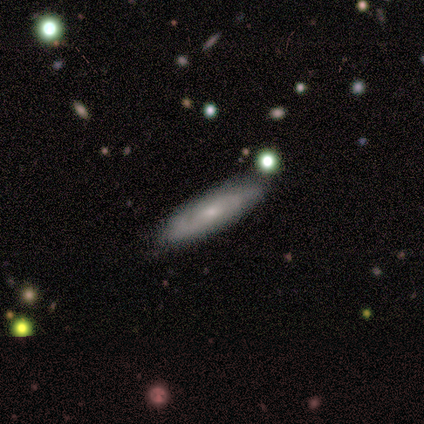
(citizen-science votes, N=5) Smooth or featured?
  - smooth: 60% *
  - featured or disk: 20%
  - star or artifact: 20%
How rounded?
  - cigar-shaped: 67% *
  - in between: 33%
  - round: 0%
Merging?
  - none: 75% *
  - minor disturbance: 25%
  - major disturbance: 0%
  - merger: 0%